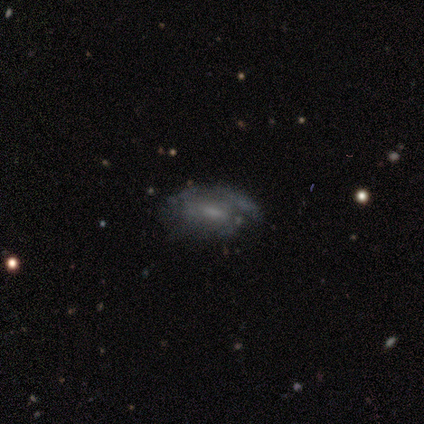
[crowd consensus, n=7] Overall: featured or disk (71%). Edge-on disk: no (100%). Bar: no (60%; weak 40%). Spiral arms: no (60%; yes 40%). Bulge size: moderate (60%; small 20%). Merging: major disturbance (43%; minor disturbance 29%).